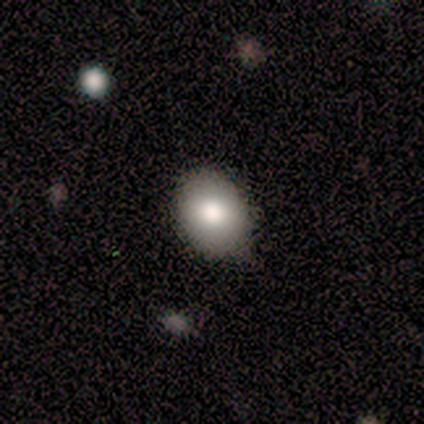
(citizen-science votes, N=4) Smooth or featured: smooth — 100%
How rounded: in between — 75% (round — 25%)
Merging: none — 75% (minor disturbance — 25%)